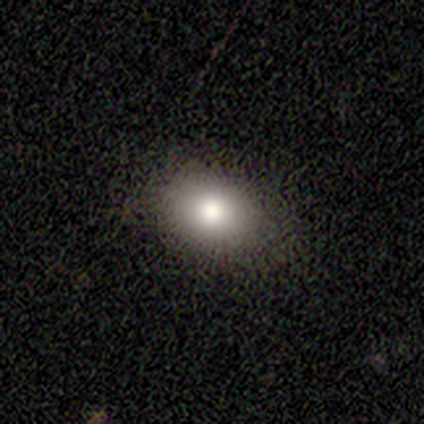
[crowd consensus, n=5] smooth-or-featured: smooth: 100% | featured or disk: 0% | star or artifact: 0%
  how-rounded: in between: 80% | round: 20% | cigar-shaped: 0%
  merging: none: 80% | minor disturbance: 20% | major disturbance: 0% | merger: 0%